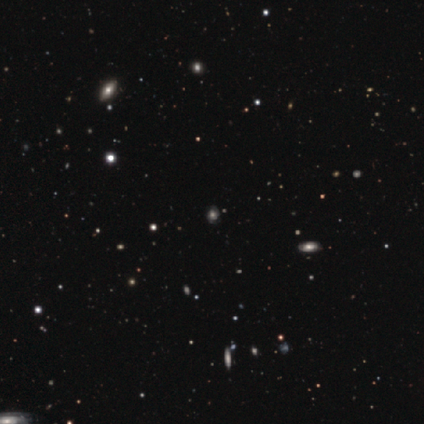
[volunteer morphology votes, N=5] This is clearly a star or artifact rather than a galaxy (80%).